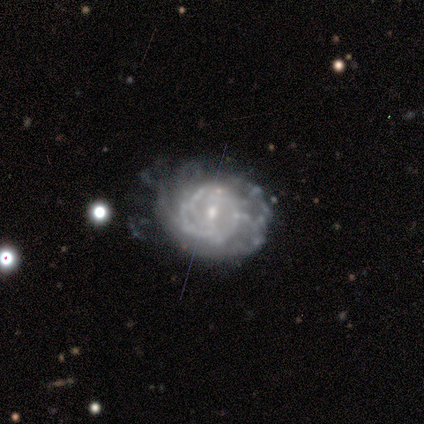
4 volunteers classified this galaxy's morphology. Smooth or featured?
  - featured or disk: 50% *
  - smooth: 25%
  - star or artifact: 25%
Edge-on disk?
  - no: 100% *
  - yes: 0%
Bar?
  - weak: 50% * (tied)
  - no: 50% * (tied)
  - strong: 0%
Spiral arms?
  - yes: 100% *
  - no: 0%
Spiral winding?
  - tight: 100% *
  - medium: 0%
  - loose: 0%
Spiral arm count?
  - 3: 50% * (tied)
  - can't tell: 50% * (tied)
  - 1: 0%
  - 2: 0%
  - 4: 0%
  - more than 4: 0%
Bulge size?
  - small: 100% *
  - dominant: 0%
  - large: 0%
  - moderate: 0%
  - none: 0%
Merging?
  - none: 100% *
  - minor disturbance: 0%
  - major disturbance: 0%
  - merger: 0%